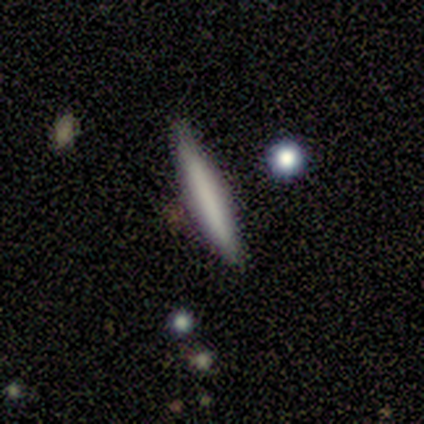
Smooth or featured: smooth — 43% (featured or disk — 29%)
How rounded: cigar-shaped — 67% (in between — 33%)
Merging: none — 80% (minor disturbance — 20%)